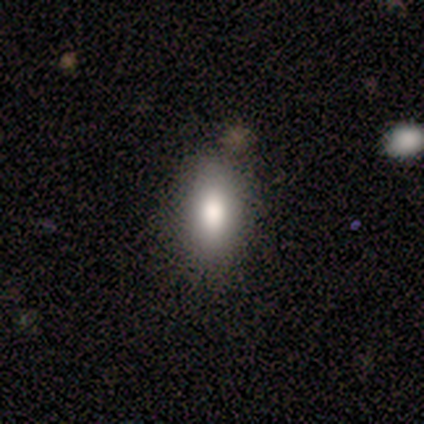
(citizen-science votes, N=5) Smooth or featured? smooth (80%)
How rounded? in between (75%)
Merging? none (75%)